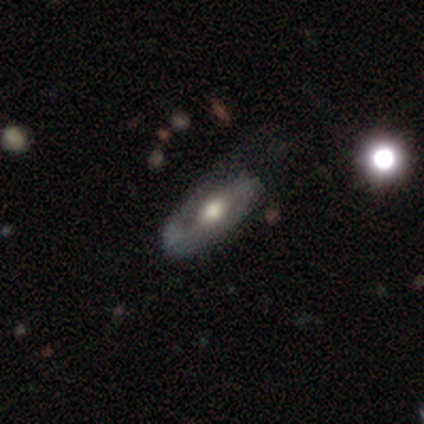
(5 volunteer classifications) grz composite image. It shows a featured or disk galaxy (80%) with no bar (67%), 2 (67%) medium (100%) spiral arms (100%) and a moderate central bulge (67%). Merging: none (60%).